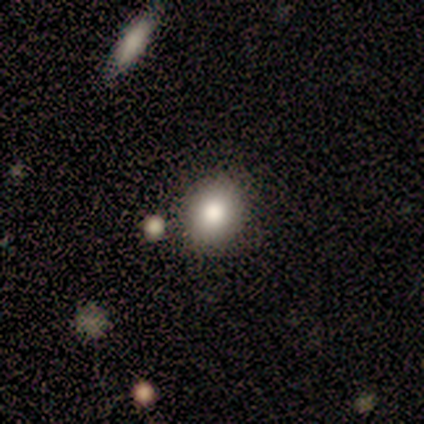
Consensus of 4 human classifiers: A smooth galaxy with no disk features (100%) that is round (75%).

Vote fractions:
- Smooth or featured? smooth: 100% / featured or disk: 0% / star or artifact: 0%
- How rounded? round: 75% / in between: 25% / cigar-shaped: 0%
- Merging? none: 50% (tied) / minor disturbance: 50% (tied) / major disturbance: 0% / merger: 0%